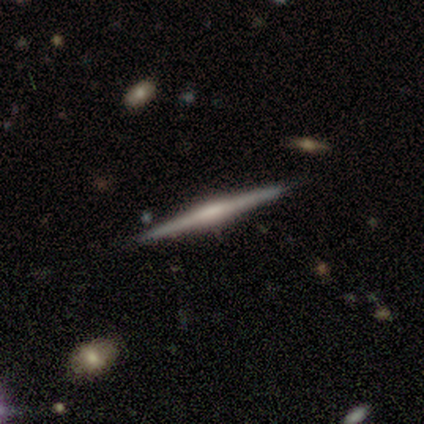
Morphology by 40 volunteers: A featured or disk galaxy (82%) viewed edge-on (100%) with a rounded central bulge (55%). Merging: none (90%).